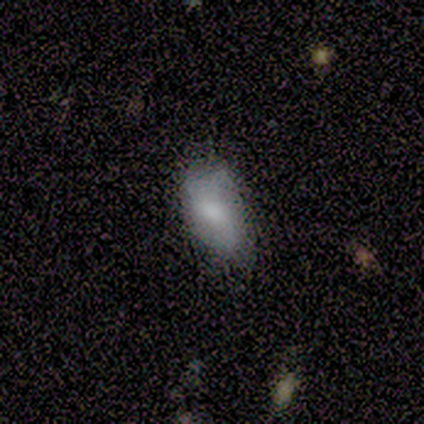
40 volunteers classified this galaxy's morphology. Smooth or featured: smooth — 65% (featured or disk — 32%)
How rounded: in between — 96% (round — 4%)
Merging: none — 54% (minor disturbance — 41%)